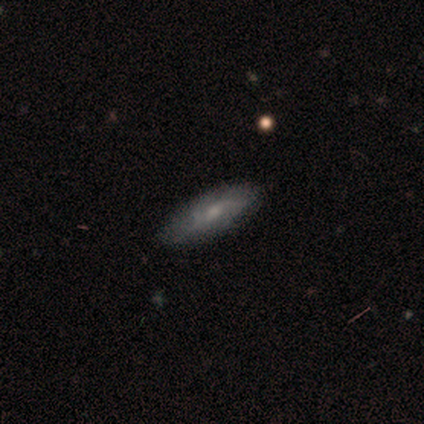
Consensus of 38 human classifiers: Q: Smooth or featured?
A: smooth (61%); runner-up: featured or disk (39%)
Q: How rounded?
A: cigar-shaped (52%); runner-up: in between (48%)
Q: Merging?
A: none (74%); runner-up: minor disturbance (21%)